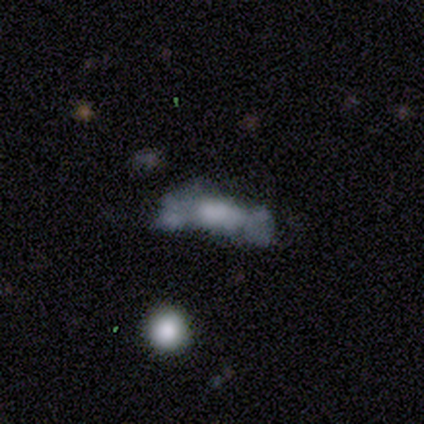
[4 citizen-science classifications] This is possibly a smooth galaxy (50%). How rounded: possibly in between (50%, tied with cigar-shaped). Merging: marginally minor disturbance (33%, tied with major disturbance and merger).